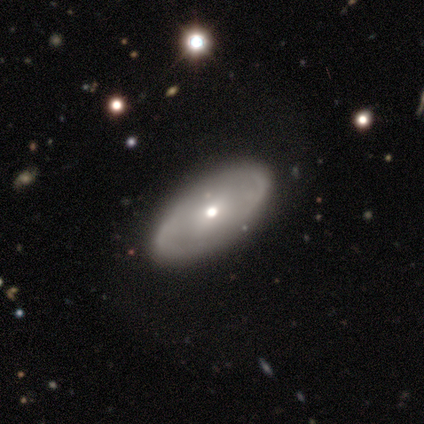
Q: Smooth or featured?
A: featured or disk (60%); runner-up: smooth (40%)
Q: Edge-on disk?
A: no (67%); runner-up: yes (33%)
Q: Bar?
A: weak (100%)
Q: Spiral arms?
A: yes (100%)
Q: Spiral winding?
A: medium (50%); tied with: loose (50%)
Q: Spiral arm count?
A: 2 (50%); tied with: can't tell (50%)
Q: Bulge size?
A: small (100%)
Q: Merging?
A: none (80%); runner-up: minor disturbance (20%)